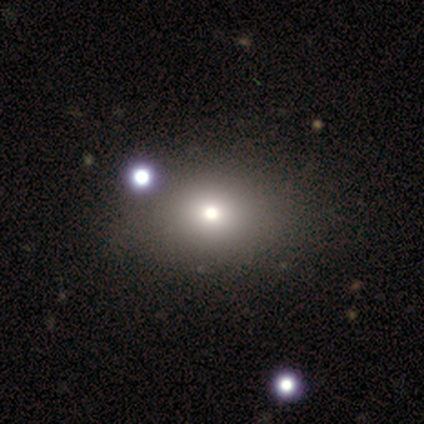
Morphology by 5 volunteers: Smooth or featured? smooth (80%)
How rounded? in between (75%)
Merging? none (75%)